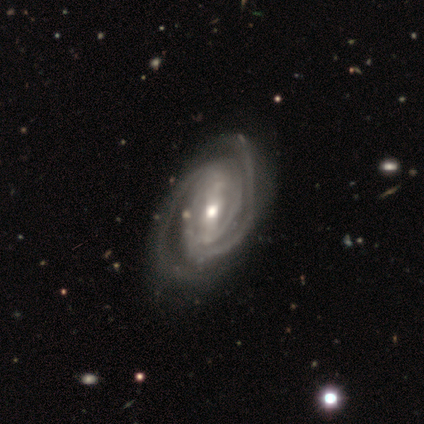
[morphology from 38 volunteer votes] A featured or disk galaxy (97%) with a strong bar (54%), 2 (80%) tight (74%) spiral arms (100%) and a moderate central bulge (71%).

Vote fractions:
- Smooth or featured? featured or disk: 97% / star or artifact: 3% / smooth: 0%
- Edge-on disk? no: 95% / yes: 5%
- Bar? strong: 54% / weak: 37% / no: 9%
- Spiral arms? yes: 100% / no: 0%
- Spiral winding? tight: 74% / medium: 20% / loose: 6%
- Spiral arm count? 2: 80% / can't tell: 11% / 3: 6% / 4: 3% / 1: 0% / more than 4: 0%
- Bulge size? moderate: 71% / small: 17% / large: 9% / dominant: 3% / none: 0%
- Merging? none: 49% / minor disturbance: 11% / major disturbance: 5% / merger: 3%